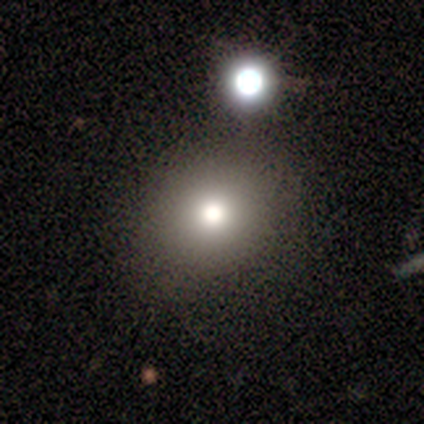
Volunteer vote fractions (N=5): smooth-or-featured: smooth: 80% | featured or disk: 20% | star or artifact: 0%
  how-rounded: round: 100% | in between: 0% | cigar-shaped: 0%
  merging: none: 80% | minor disturbance: 20% | major disturbance: 0% | merger: 0%